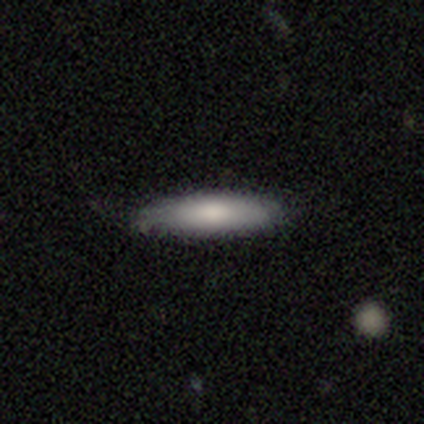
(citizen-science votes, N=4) This is clearly a smooth galaxy (100%). How rounded: likely cigar-shaped (75%). Merging: clearly none (100%).